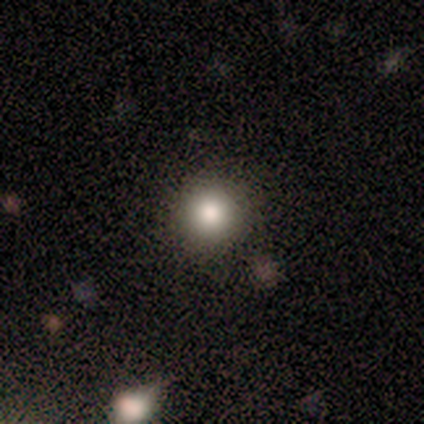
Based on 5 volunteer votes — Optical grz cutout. It shows a smooth galaxy with no disk features (100%) that is round (100%). Merging: none (80%).